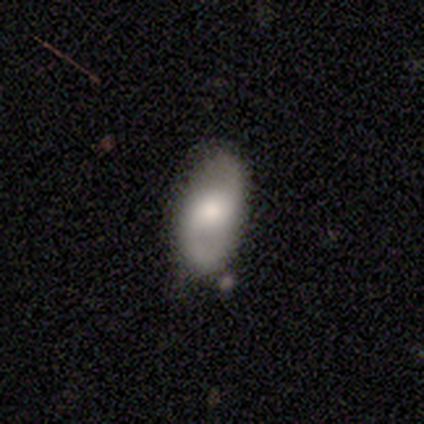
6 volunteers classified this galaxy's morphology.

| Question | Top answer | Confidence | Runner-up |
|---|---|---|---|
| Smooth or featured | smooth | 50% | tied: featured or disk (50%) |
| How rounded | in between | 67% | round (33%) |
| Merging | none | 67% | minor disturbance (33%) |